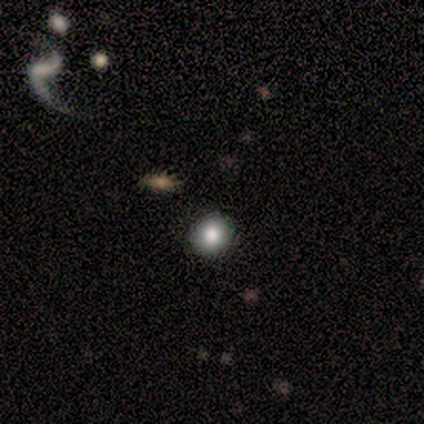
Smooth or featured?
  - smooth: 60% *
  - star or artifact: 40%
  - featured or disk: 0%
How rounded?
  - round: 100% *
  - in between: 0%
  - cigar-shaped: 0%
Merging?
  - none: 100% *
  - minor disturbance: 0%
  - major disturbance: 0%
  - merger: 0%